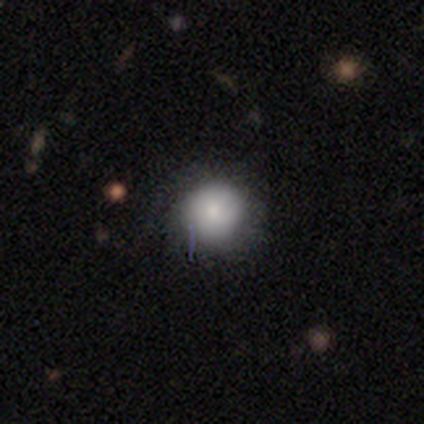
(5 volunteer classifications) This is clearly a smooth galaxy (80%). How rounded: clearly round (100%). Merging: clearly none (100%).